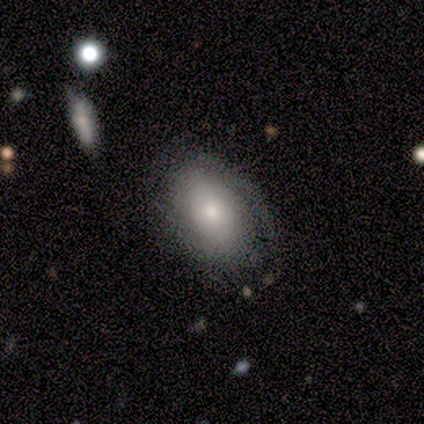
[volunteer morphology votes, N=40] Smooth or featured? 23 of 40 (57%) said smooth. How rounded? 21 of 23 (91%) said in between. Merging? 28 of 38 (74%) said none.